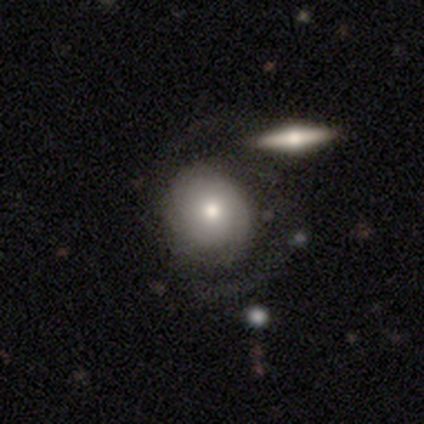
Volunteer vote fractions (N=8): Smooth or featured?
  - smooth: 38% * (tied)
  - featured or disk: 38% * (tied)
  - star or artifact: 25%
How rounded?
  - round: 67% *
  - in between: 33%
  - cigar-shaped: 0%
Merging?
  - none: 33% * (tied)
  - minor disturbance: 33% * (tied)
  - major disturbance: 17%
  - merger: 17%